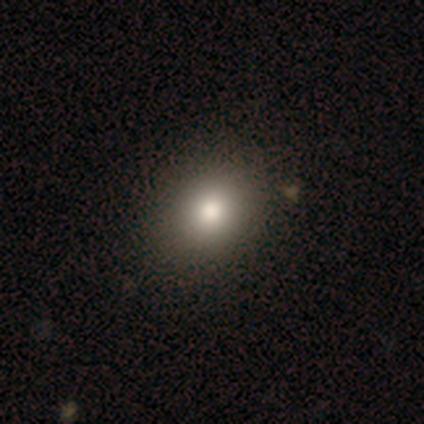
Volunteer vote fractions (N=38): smooth_or_featured: smooth (p=0.92) [alt: featured or disk p=0.08]
how_rounded: round (p=0.57) [alt: in between p=0.40]
merging: none (p=0.53) [alt: minor disturbance p=0.08]